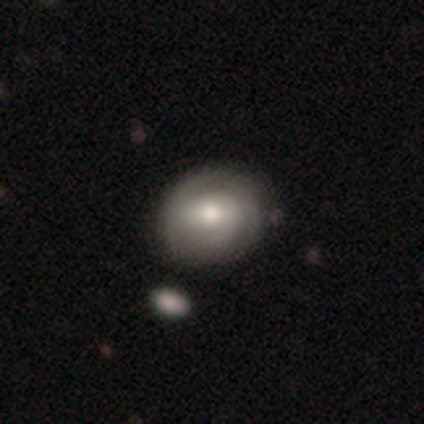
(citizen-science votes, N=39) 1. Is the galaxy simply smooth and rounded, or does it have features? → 64% featured or disk, 31% smooth, 5% star or artifact.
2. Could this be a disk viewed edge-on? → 96% no, 4% yes.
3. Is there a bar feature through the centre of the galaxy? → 46% no, 42% weak, 12% strong.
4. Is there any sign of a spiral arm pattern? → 83% yes, 17% no.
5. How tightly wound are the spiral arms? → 55% medium, 30% tight, 15% loose.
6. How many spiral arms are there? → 65% 2, 35% can't tell, 0% 1, 0% 3, 0% 4, 0% more than 4.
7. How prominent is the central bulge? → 79% moderate, 21% large, 0% dominant, 0% small, 0% none.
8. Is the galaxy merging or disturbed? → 43% none, 14% minor disturbance, 8% major disturbance, 3% merger.